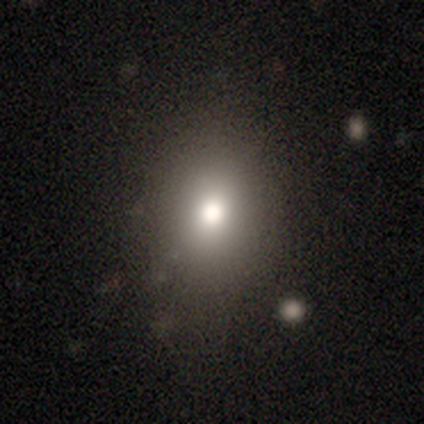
This appears to be a smooth galaxy with no disk features (63%) that is in between round and cigar-shaped (58%). Merging: none (81%).